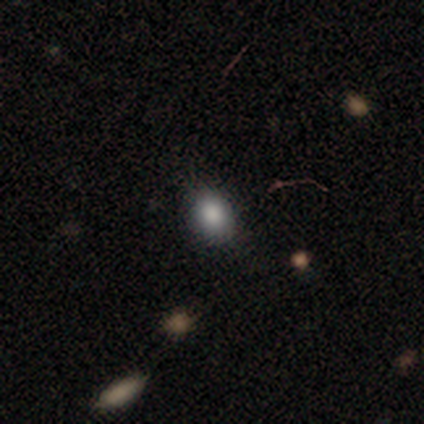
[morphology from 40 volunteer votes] Smooth or featured?
  - smooth: 88% *
  - star or artifact: 8%
  - featured or disk: 5%
How rounded?
  - in between: 71% *
  - round: 29%
  - cigar-shaped: 0%
Merging?
  - none: 86% *
  - minor disturbance: 14%
  - major disturbance: 0%
  - merger: 0%